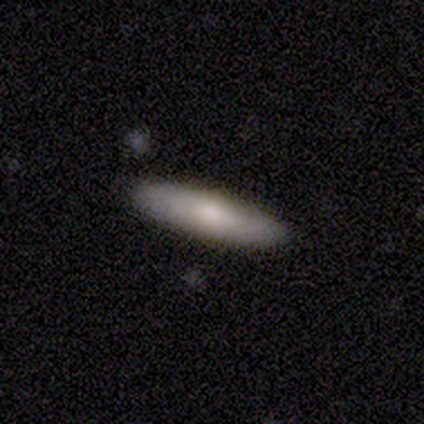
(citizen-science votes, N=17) Smooth or featured: smooth — 94% (featured or disk — 6%)
How rounded: cigar-shaped — 69% (in between — 31%)
Merging: none — 88% (minor disturbance — 12%)